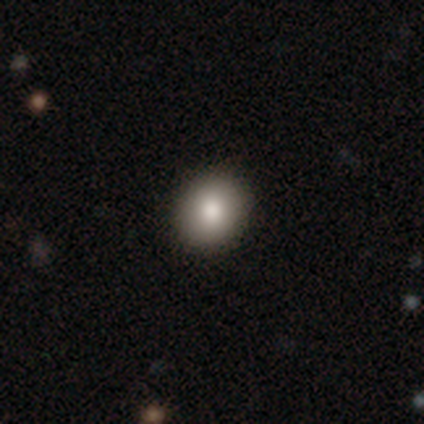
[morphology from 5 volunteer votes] This is clearly a smooth galaxy (80%). How rounded: possibly round (50%, tied with in between). Merging: clearly none (80%).